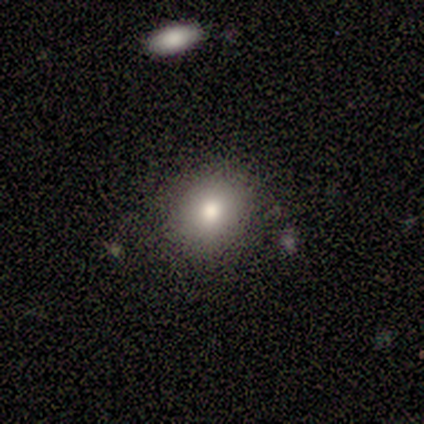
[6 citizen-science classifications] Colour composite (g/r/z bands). It shows a smooth galaxy with no disk features (67%) that is round (100%). Merging: none (100%).